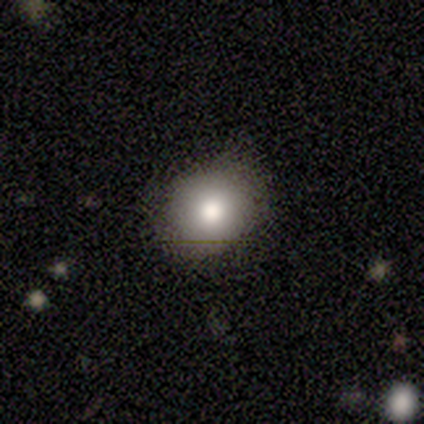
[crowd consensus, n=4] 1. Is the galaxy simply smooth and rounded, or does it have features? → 100% smooth, 0% featured or disk, 0% star or artifact.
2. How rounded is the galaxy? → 75% round, 25% in between, 0% cigar-shaped.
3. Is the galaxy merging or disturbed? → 50% none, 25% minor disturbance, 25% major disturbance, 0% merger.